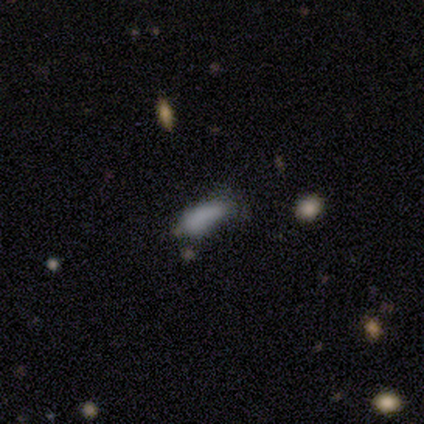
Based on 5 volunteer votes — This appears to be a smooth galaxy with no disk features (100%) that is in between round and cigar-shaped (100%). Merging: minor disturbance (60%).